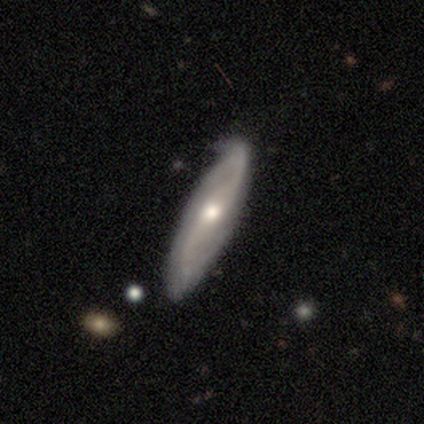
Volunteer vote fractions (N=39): Smooth or featured: featured or disk — 74% (smooth — 23%)
Edge-on disk: no — 79% (yes — 21%)
Bar: no — 65% (weak — 30%)
Spiral arms: yes — 87% (no — 13%)
Spiral winding: loose — 45% (medium — 40%)
Spiral arm count: 2 — 65% (can't tell — 35%)
Bulge size: moderate — 65% (small — 30%)
Merging: none — 58% (minor disturbance — 42%)